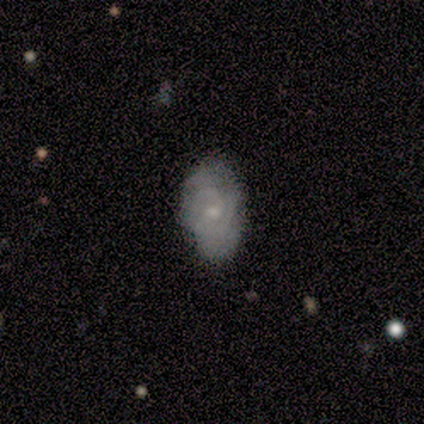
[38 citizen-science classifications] This is possibly a smooth galaxy (47%, tied with featured or disk). How rounded: likely in between (78%). Merging: likely none (72%).